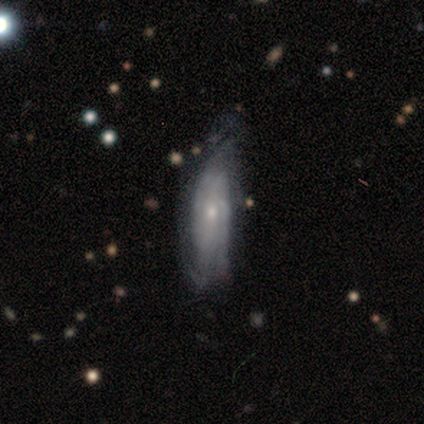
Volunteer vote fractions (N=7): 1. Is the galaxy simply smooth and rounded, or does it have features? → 71% featured or disk, 29% smooth, 0% star or artifact.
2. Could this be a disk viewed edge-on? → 80% no, 20% yes.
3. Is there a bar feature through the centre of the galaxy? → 100% no, 0% strong, 0% weak.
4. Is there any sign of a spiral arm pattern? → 100% yes, 0% no.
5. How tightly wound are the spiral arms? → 75% tight, 25% medium, 0% loose.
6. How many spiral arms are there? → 100% can't tell, 0% 1, 0% 2, 0% 3, 0% 4, 0% more than 4.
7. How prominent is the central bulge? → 50% moderate (tied), 50% small (tied), 0% dominant, 0% large, 0% none.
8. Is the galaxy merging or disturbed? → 43% none (tied), 43% minor disturbance (tied), 14% major disturbance, 0% merger.